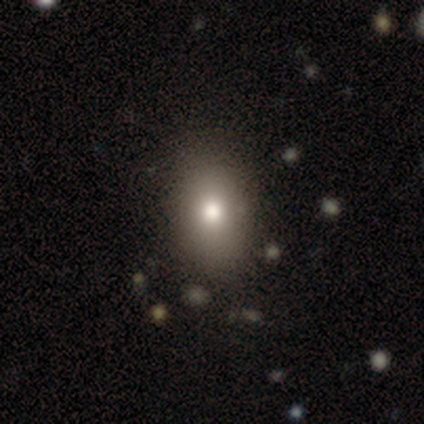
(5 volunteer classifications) smooth-or-featured: smooth: 80% | featured or disk: 20% | star or artifact: 0%
  how-rounded: in between: 100% | round: 0% | cigar-shaped: 0%
  merging: none: 80% | merger: 20% | minor disturbance: 0% | major disturbance: 0%